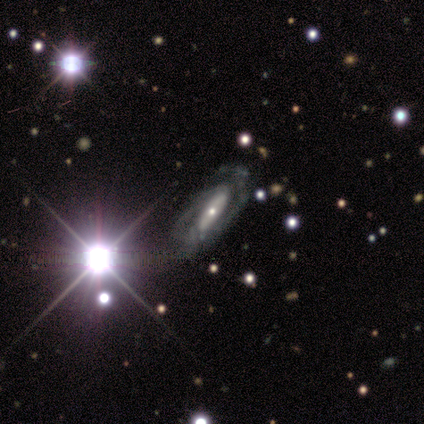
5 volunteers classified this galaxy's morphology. Volunteers were most divided on "bar" (2-way tie): strong: 50%, no: 50%, weak: 0%. More confident: edge-on disk — no (100%); spiral arms — yes (100%); merging — none (100%); smooth or featured — featured or disk (80%); spiral winding — medium (75%); spiral arm count — 2 (75%); bulge size — small (50%).